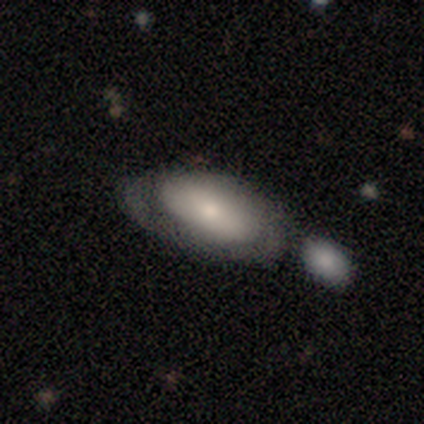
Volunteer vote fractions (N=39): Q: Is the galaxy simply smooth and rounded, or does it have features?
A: smooth — 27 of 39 (69%).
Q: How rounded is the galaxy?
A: in between — 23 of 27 (85%).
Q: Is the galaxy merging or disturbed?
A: none — 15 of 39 (38%).